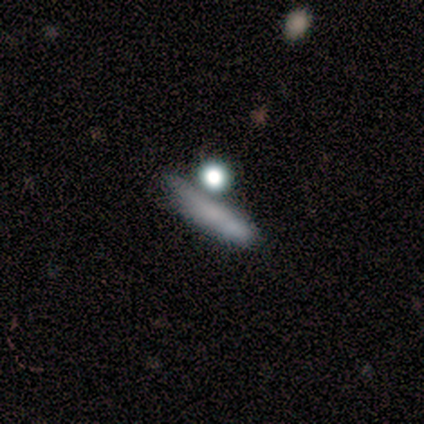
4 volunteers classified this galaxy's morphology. smooth_or_featured: smooth (p=1.00)
how_rounded: cigar-shaped (p=0.75) [alt: in between p=0.25]
merging: none (p=0.50) [alt: minor disturbance p=0.25]